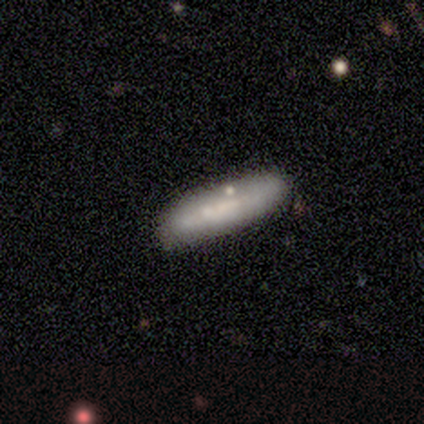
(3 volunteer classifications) smooth_or_featured: featured or disk (p=0.67) [alt: smooth p=0.33]
disk_edge_on: yes (p=0.50) [tied with: no p=0.50]
edge_on_bulge: none (p=1.00)
merging: none (p=1.00)